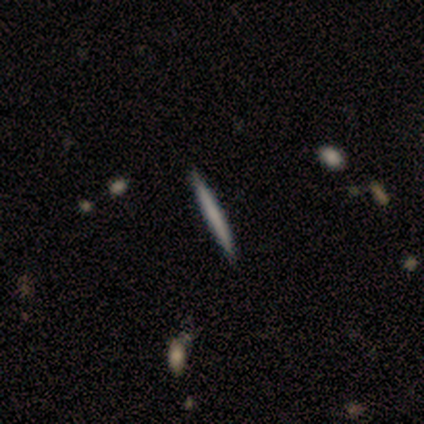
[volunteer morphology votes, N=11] Smooth or featured?
  - smooth: 82% *
  - featured or disk: 18%
  - star or artifact: 0%
How rounded?
  - cigar-shaped: 100% *
  - round: 0%
  - in between: 0%
Merging?
  - none: 91% *
  - minor disturbance: 9%
  - major disturbance: 0%
  - merger: 0%